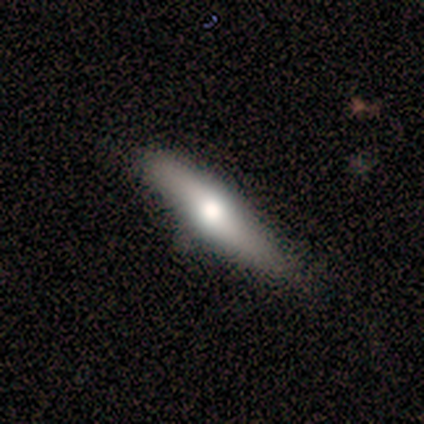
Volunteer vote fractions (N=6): A smooth galaxy with no disk features (50%) that is cigar-shaped (67%). Merging: none (60%).